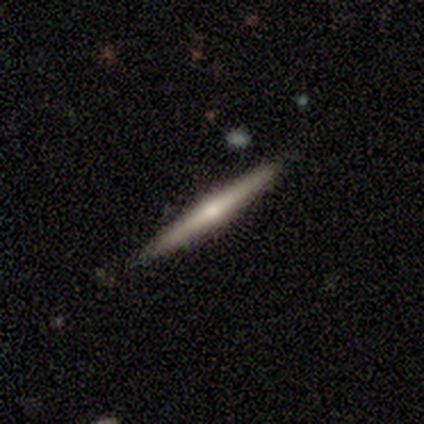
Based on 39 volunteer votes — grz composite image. It shows a featured or disk galaxy (67%) viewed edge-on (100%) with a rounded central bulge (88%). Merging: none (92%).